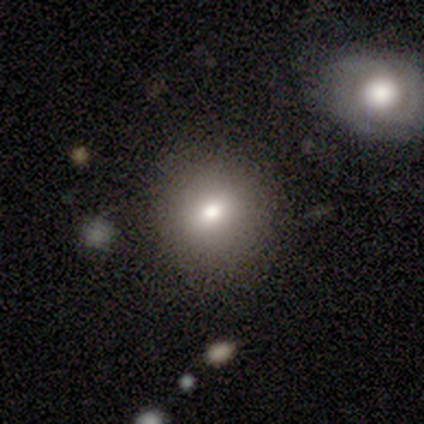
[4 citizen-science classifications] Smooth or featured?
  - smooth: 100% *
  - featured or disk: 0%
  - star or artifact: 0%
How rounded?
  - round: 100% *
  - in between: 0%
  - cigar-shaped: 0%
Merging?
  - none: 100% *
  - minor disturbance: 0%
  - major disturbance: 0%
  - merger: 0%